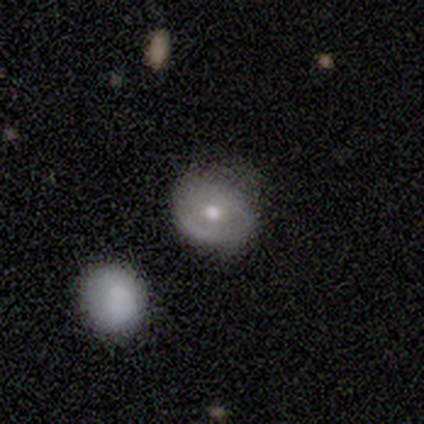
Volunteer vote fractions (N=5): This is clearly a featured or disk galaxy (80%). It is clearly not viewed edge-on (100%). Bar: clearly no (100%). Spiral arm pattern: possibly yes (50%, tied with no). Spiral arm count: clearly can't tell (100%). Spiral winding: clearly tight (100%). Central bulge: likely moderate (75%). Merging: possibly none (50%).